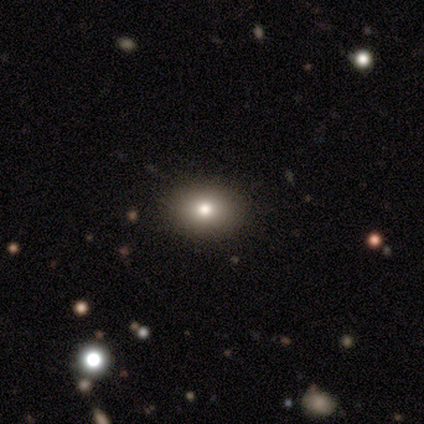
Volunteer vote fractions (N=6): This is possibly a smooth galaxy (50%). How rounded: clearly in between (100%). Merging: clearly none (80%).